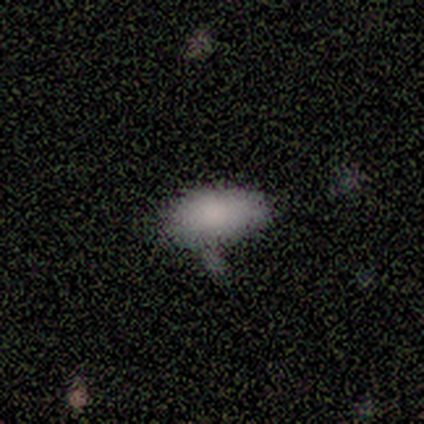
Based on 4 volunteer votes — Smooth or featured? smooth (75%)
How rounded? in between (100%)
Merging? none (50%)